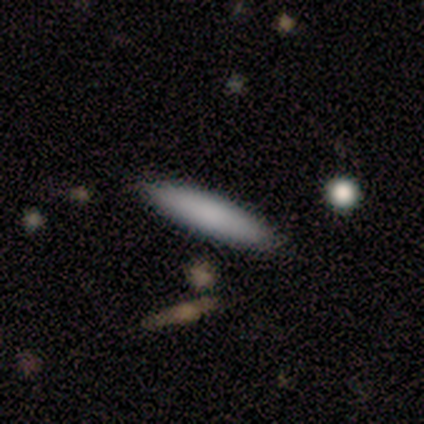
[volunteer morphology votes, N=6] smooth_or_featured: smooth (p=0.83) [alt: featured or disk p=0.17]
how_rounded: cigar-shaped (p=1.00)
merging: none (p=1.00)